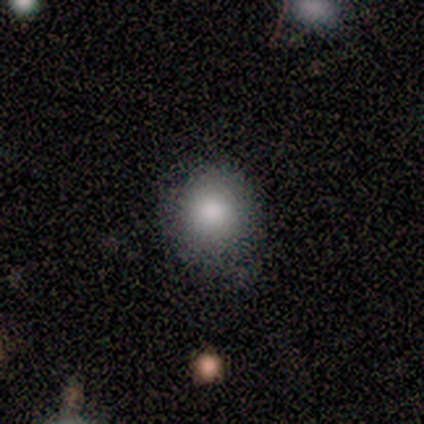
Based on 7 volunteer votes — Smooth or featured? smooth (86%)
How rounded? round (83%)
Merging? none (100%)